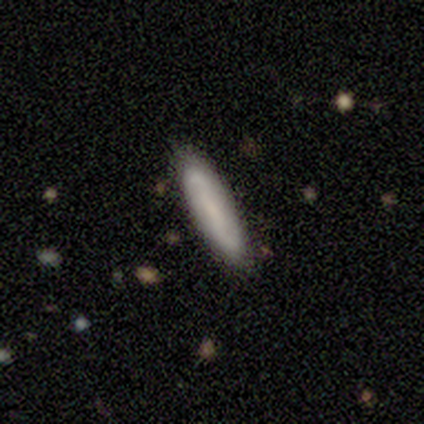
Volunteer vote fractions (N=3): Smooth or featured? featured or disk (100%)
Edge-on disk? no (67%)
Bar? strong (50%, tied with weak)
Spiral arms? yes (100%)
Spiral winding? tight (50%, tied with loose)
Spiral arm count? 2 (50%, tied with can't tell)
Bulge size? small (50%, tied with none)
Merging? none (100%)